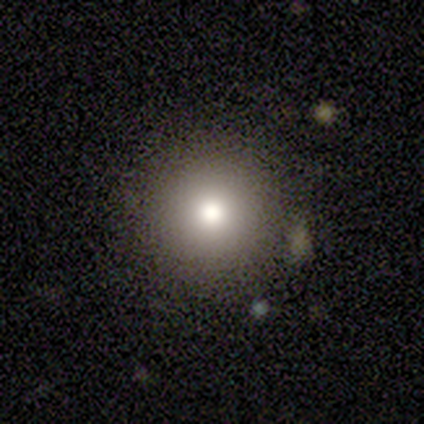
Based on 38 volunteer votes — smooth 82%, star or artifact 13%, featured or disk 5%. Down the decision tree: how rounded — round (100%); merging — none (94%).